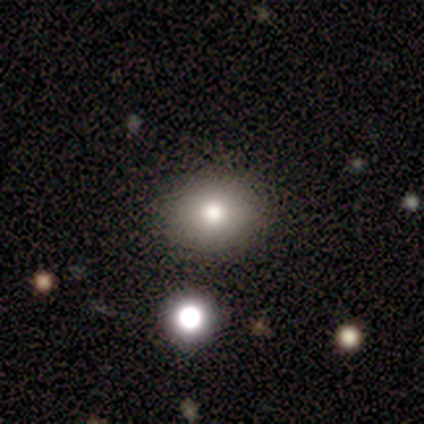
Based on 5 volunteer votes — This appears to be a smooth galaxy with no disk features (60%) that is round (100%). Merging: none (100%).